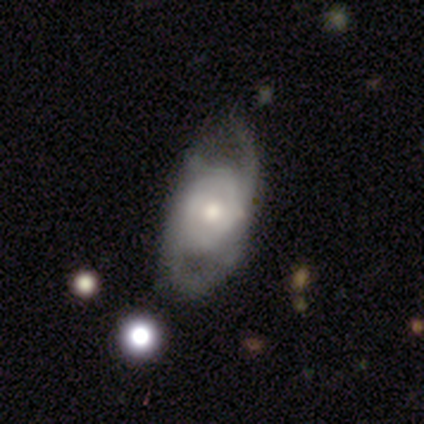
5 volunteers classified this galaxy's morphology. Smooth or featured? featured or disk (60%)
Edge-on disk? no (67%)
Bar? weak (50%, tied with no)
Spiral arms? no (100%)
Bulge size? moderate (50%, tied with small)
Merging? major disturbance (50%)